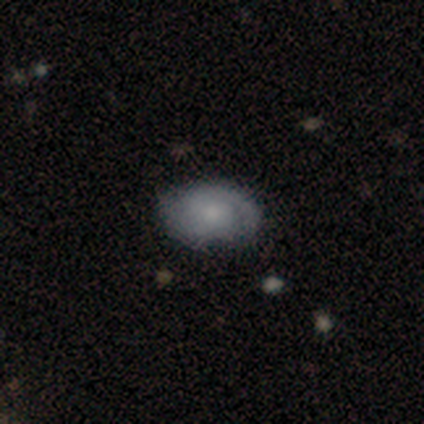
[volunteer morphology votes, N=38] A featured or disk galaxy (63%) with no bar (83%), 2 (64%) tight (45%) spiral arms (96%) and a small central bulge (70%).

Vote fractions:
- Smooth or featured? featured or disk: 63% / smooth: 34% / star or artifact: 3%
- Edge-on disk? no: 96% / yes: 4%
- Bar? no: 83% / weak: 13% / strong: 4%
- Spiral arms? yes: 96% / no: 4%
- Spiral winding? tight: 45% / medium: 36% / loose: 18%
- Spiral arm count? 2: 64% / can't tell: 27% / 1: 9% / 3: 0% / 4: 0% / more than 4: 0%
- Bulge size? small: 70% / moderate: 22% / none: 9% / dominant: 0% / large: 0%
- Merging? none: 86% / minor disturbance: 11% / major disturbance: 3% / merger: 0%